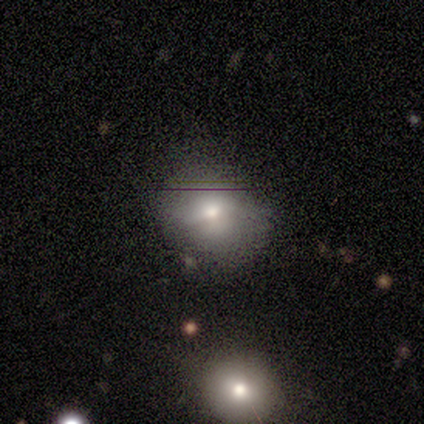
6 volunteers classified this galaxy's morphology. smooth-or-featured: smooth: 83% | featured or disk: 17% | star or artifact: 0%
  how-rounded: round: 100% | in between: 0% | cigar-shaped: 0%
  merging: none: 100% | minor disturbance: 0% | major disturbance: 0% | merger: 0%